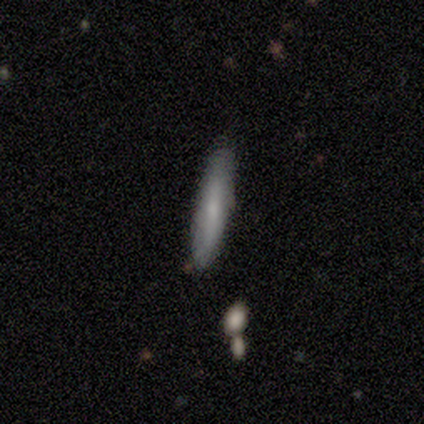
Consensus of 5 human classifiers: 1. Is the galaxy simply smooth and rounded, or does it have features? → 100% smooth, 0% featured or disk, 0% star or artifact.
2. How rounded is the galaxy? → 80% cigar-shaped, 20% in between, 0% round.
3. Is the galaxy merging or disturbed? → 80% none, 20% minor disturbance, 0% major disturbance, 0% merger.